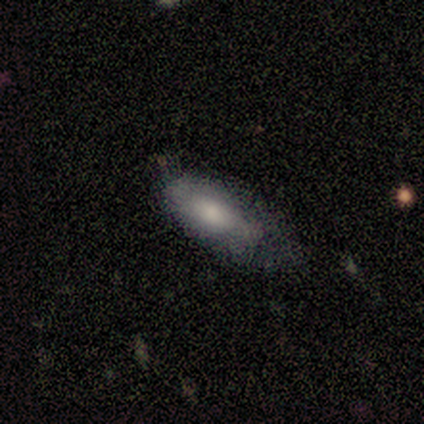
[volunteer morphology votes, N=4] smooth 75%, featured or disk 25%, star or artifact 0%. Down the decision tree: how rounded — in between (100%); merging — minor disturbance (50%).